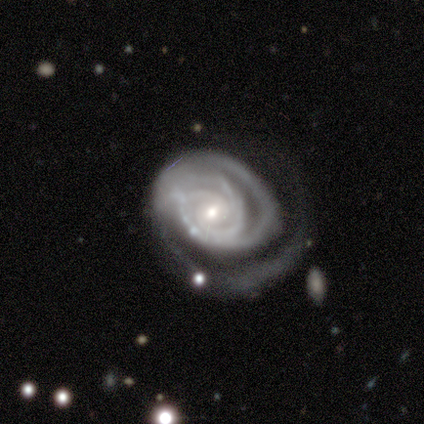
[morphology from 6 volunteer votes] Smooth or featured? 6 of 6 (100%) said featured or disk. Edge-on disk? 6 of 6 (100%) said no. Bar? 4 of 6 (67%) said no. Spiral arms? 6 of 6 (100%) said yes. Spiral winding? 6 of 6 (100%) said tight. Spiral arm count? 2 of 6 (33%) said 2. Bulge size? 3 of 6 (50%, tied with small) said moderate. Merging? 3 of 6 (50%) said none.